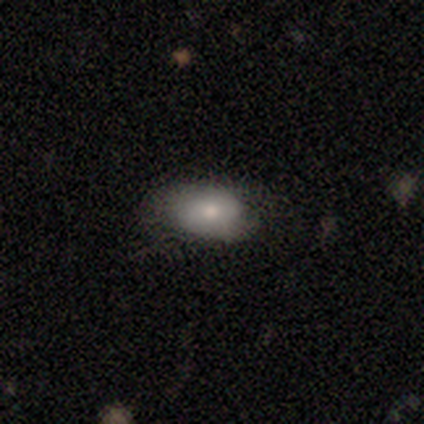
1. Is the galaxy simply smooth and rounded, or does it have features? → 50% smooth, 25% featured or disk, 25% star or artifact.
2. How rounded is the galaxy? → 100% in between, 0% round, 0% cigar-shaped.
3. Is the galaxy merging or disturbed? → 67% none, 33% minor disturbance, 0% major disturbance, 0% merger.